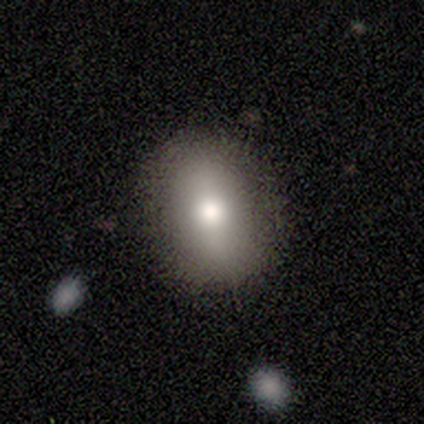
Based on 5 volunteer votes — Overall: smooth (100%). How rounded: in between (80%). Merging: none (80%).